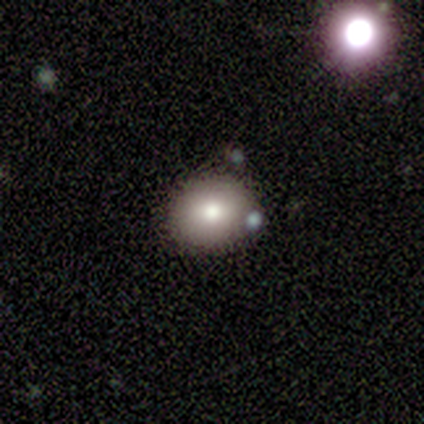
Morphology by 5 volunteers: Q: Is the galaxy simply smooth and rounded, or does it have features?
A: smooth — 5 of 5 (100%).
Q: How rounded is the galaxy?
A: in between — 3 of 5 (60%).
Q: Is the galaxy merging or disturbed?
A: none — 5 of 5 (100%).